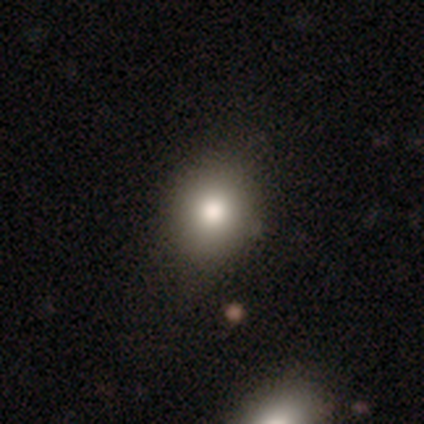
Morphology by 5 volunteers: smooth_or_featured: smooth (p=0.80) [alt: featured or disk p=0.20]
how_rounded: round (p=1.00)
merging: none (p=1.00)